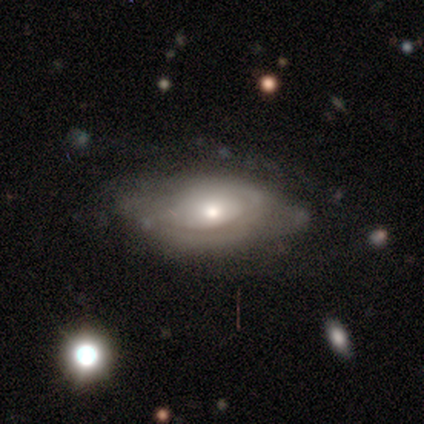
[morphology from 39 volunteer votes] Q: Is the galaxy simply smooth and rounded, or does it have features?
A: featured or disk — 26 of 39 (67%).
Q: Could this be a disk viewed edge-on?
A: no — 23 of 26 (88%).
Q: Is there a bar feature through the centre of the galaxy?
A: no — 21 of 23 (91%).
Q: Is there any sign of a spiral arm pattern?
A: no — 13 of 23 (57%).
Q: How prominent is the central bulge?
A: moderate — 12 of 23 (52%).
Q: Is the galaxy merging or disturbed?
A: none — 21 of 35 (60%).